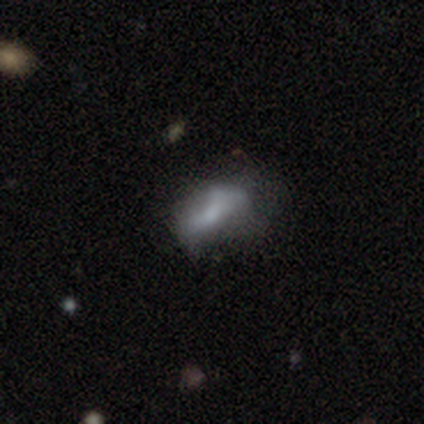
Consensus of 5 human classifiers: Q: Smooth or featured?
A: smooth (40%); tied with: featured or disk (40%)
Q: How rounded?
A: round (50%); tied with: in between (50%)
Q: Merging?
A: minor disturbance (50%); tied with: major disturbance (50%)